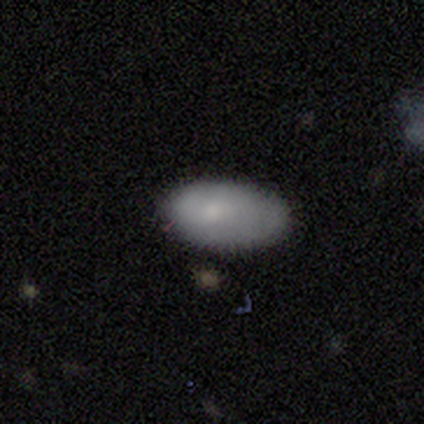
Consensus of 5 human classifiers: A featured or disk galaxy (60%) with no bar (67%), no spiral arms (67%) and a small central bulge (100%).

Vote fractions:
- Smooth or featured? featured or disk: 60% / smooth: 40% / star or artifact: 0%
- Edge-on disk? no: 100% / yes: 0%
- Bar? no: 67% / weak: 33% / strong: 0%
- Spiral arms? no: 67% / yes: 33%
- Bulge size? small: 100% / dominant: 0% / large: 0% / moderate: 0% / none: 0%
- Merging? minor disturbance: 40% (tied) / major disturbance: 40% (tied) / none: 20% / merger: 0%